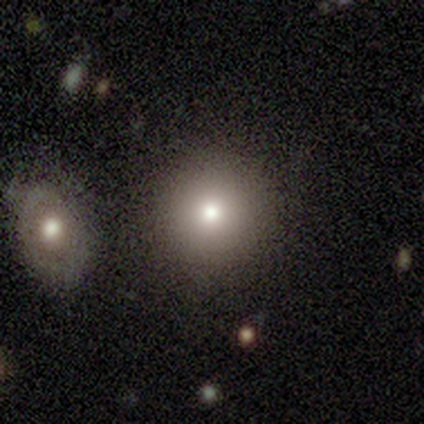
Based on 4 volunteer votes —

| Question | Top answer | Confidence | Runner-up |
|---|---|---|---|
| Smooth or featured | smooth | 50% | tied: star or artifact (50%) |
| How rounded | round | 100% | — |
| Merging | none | 100% | — |